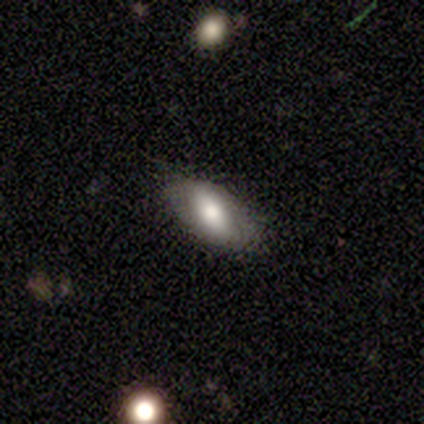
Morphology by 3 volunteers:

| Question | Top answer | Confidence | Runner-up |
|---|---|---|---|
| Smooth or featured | smooth | 67% | star or artifact (33%) |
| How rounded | in between | 100% | — |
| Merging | none | 50% | tied: minor disturbance (50%) |